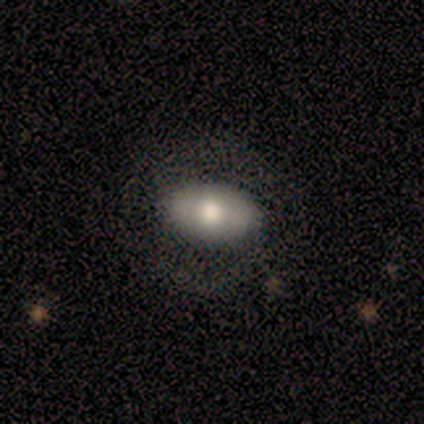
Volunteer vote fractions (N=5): Smooth or featured: smooth — 60% (featured or disk — 40%)
How rounded: in between — 100%
Merging: none — 80% (major disturbance — 20%)